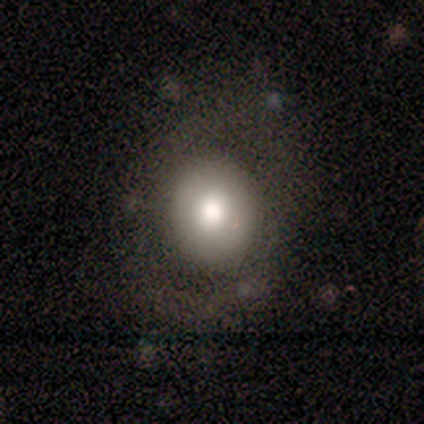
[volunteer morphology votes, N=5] Smooth or featured? smooth (40%, tied with featured or disk)
How rounded? round (50%, tied with in between)
Merging? none (75%)